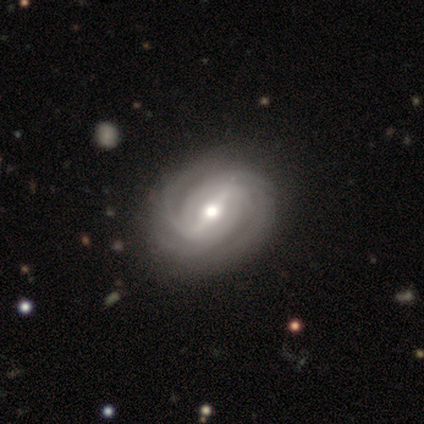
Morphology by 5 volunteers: Smooth or featured? featured or disk (100%)
Edge-on disk? no (100%)
Bar? strong (80%)
Spiral arms? yes (100%)
Spiral winding? tight (60%)
Spiral arm count? 2 (60%)
Bulge size? moderate (80%)
Merging? none (80%)